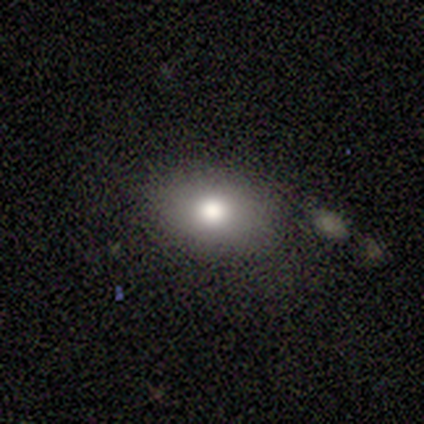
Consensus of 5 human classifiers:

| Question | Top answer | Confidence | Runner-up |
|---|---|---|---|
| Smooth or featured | smooth | 60% | featured or disk (40%) |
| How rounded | in between | 100% | — |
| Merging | none | 80% | minor disturbance (20%) |